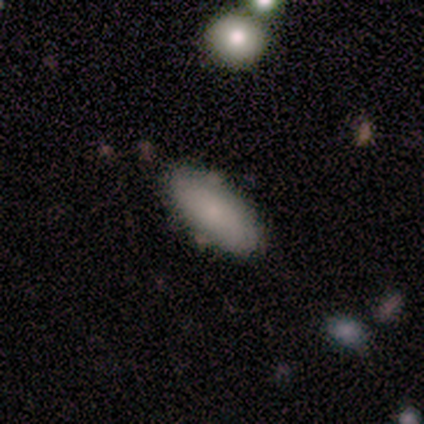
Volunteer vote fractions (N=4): This appears to be a smooth galaxy with no disk features (100%) that is in between round and cigar-shaped (75%). Merging: none (75%).